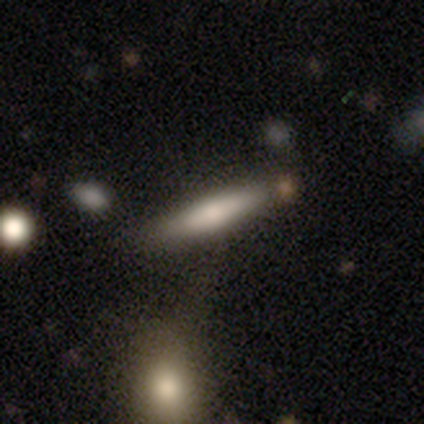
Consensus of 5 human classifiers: A smooth galaxy with no disk features (60%) that is cigar-shaped (67%). Merging: none (100%).